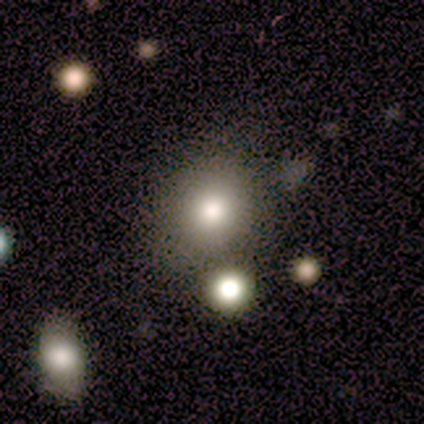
smooth-or-featured: smooth: 80% | featured or disk: 20% | star or artifact: 0%
  how-rounded: round: 100% | in between: 0% | cigar-shaped: 0%
  merging: none: 80% | minor disturbance: 20% | major disturbance: 0% | merger: 0%